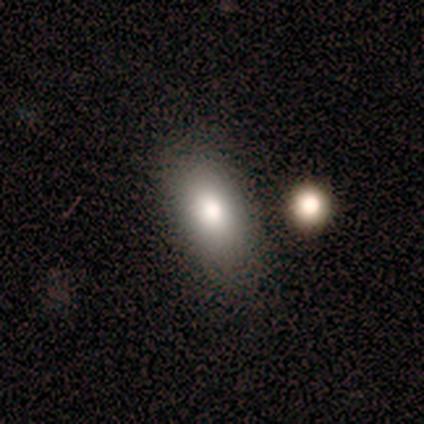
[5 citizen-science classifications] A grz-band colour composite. It shows a smooth galaxy with no disk features (100%) that is in between round and cigar-shaped (60%). Merging: none (80%).